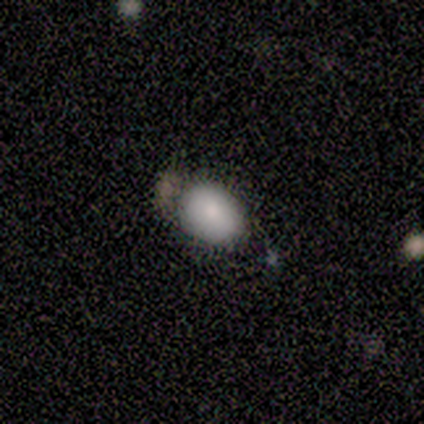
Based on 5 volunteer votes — smooth_or_featured: smooth (p=0.80) [alt: star or artifact p=0.20]
how_rounded: round (p=0.50) [tied with: in between p=0.50]
merging: none (p=0.75) [alt: minor disturbance p=0.25]